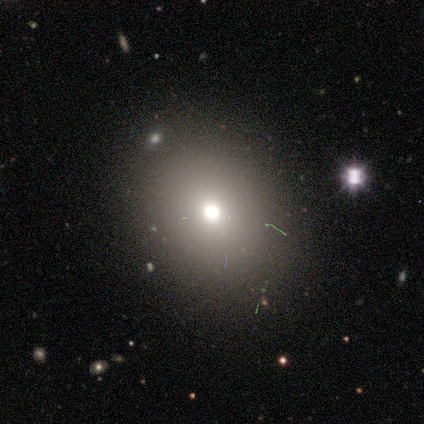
Smooth or featured? smooth (100%)
How rounded? round (60%)
Merging? none (100%)